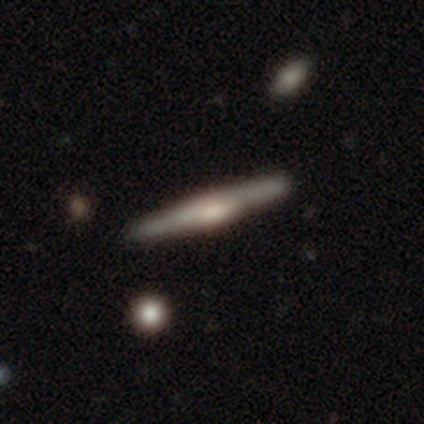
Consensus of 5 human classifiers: Overall: featured or disk (80%). Edge-on disk: yes (100%). Edge-on bulge: boxy (50%, tied with rounded). Merging: none (100%).